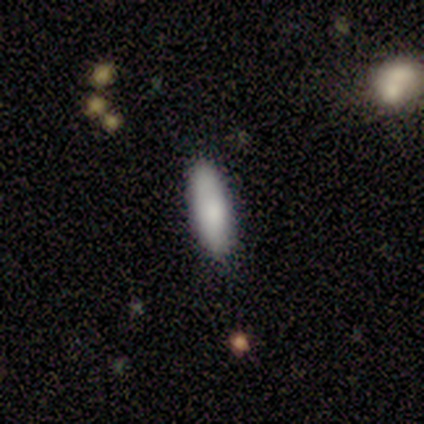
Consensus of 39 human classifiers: Smooth or featured? 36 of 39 (92%) said smooth. How rounded? 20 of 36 (56%) said cigar-shaped. Merging? 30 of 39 (77%) said none.